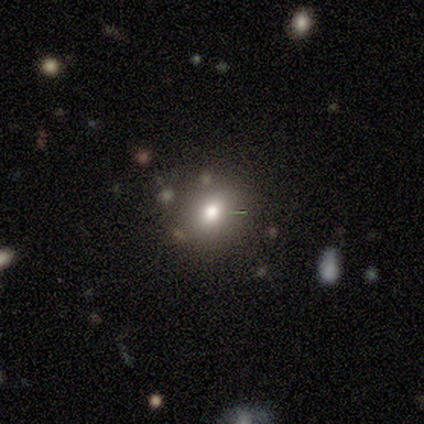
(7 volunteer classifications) Q: Smooth or featured?
A: smooth (86%); runner-up: star or artifact (14%)
Q: How rounded?
A: round (100%)
Q: Merging?
A: none (83%); runner-up: minor disturbance (17%)